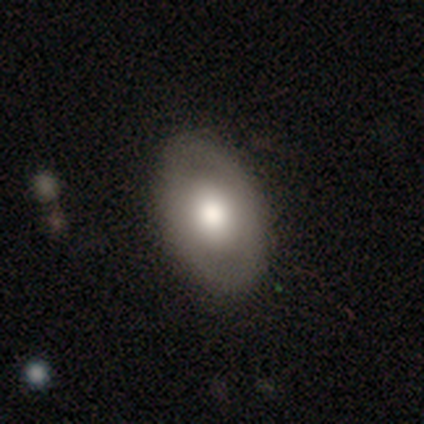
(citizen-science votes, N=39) Smooth or featured?
  - smooth: 56% *
  - featured or disk: 38%
  - star or artifact: 5%
How rounded?
  - in between: 82% *
  - round: 18%
  - cigar-shaped: 0%
Merging?
  - none: 89% *
  - minor disturbance: 8%
  - major disturbance: 3%
  - merger: 0%